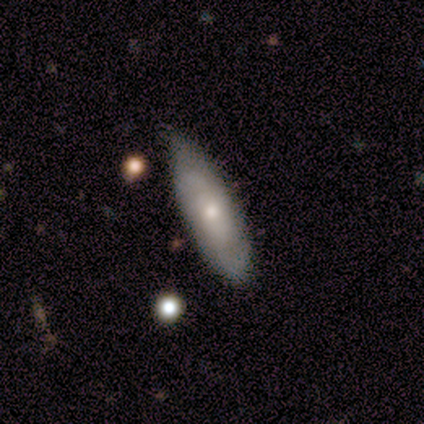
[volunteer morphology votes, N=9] Overall: featured or disk (56%; smooth 33%). Edge-on disk: no (80%). Bar: no (50%; strong 25%). Spiral arms: yes (50%, tied with no). Spiral arm count: 2 (50%, tied with can't tell). Spiral winding: tight (50%, tied with loose). Bulge size: moderate (50%, tied with small). Merging: none (50%; minor disturbance 38%).